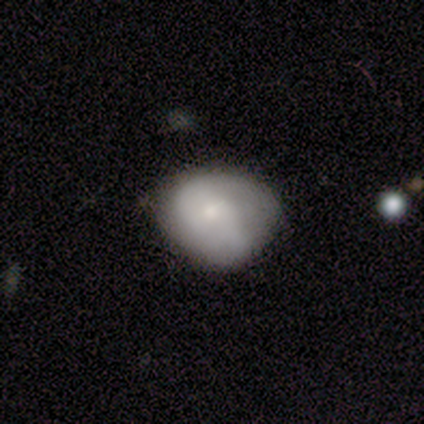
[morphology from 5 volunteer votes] Smooth or featured: smooth — 60% (featured or disk — 20%)
How rounded: round — 100%
Merging: none — 75% (minor disturbance — 25%)